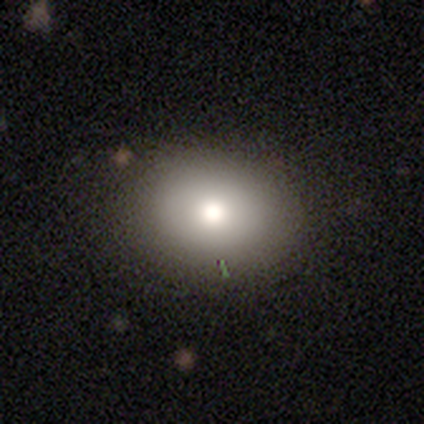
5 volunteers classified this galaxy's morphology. smooth_or_featured: smooth (p=0.80) [alt: star or artifact p=0.20]
how_rounded: round (p=0.50) [tied with: in between p=0.50]
merging: none (p=1.00)